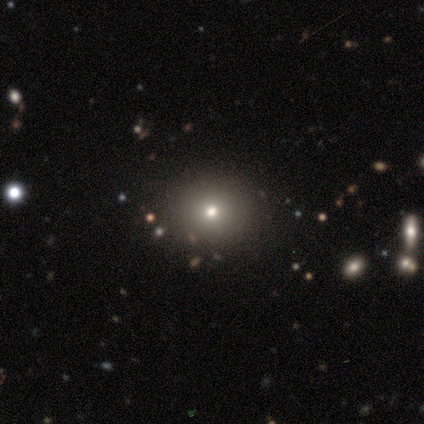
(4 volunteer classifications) smooth-or-featured: smooth: 75% | star or artifact: 25% | featured or disk: 0%
  how-rounded: round: 67% | in between: 33% | cigar-shaped: 0%
  merging: none: 67% | minor disturbance: 33% | major disturbance: 0% | merger: 0%